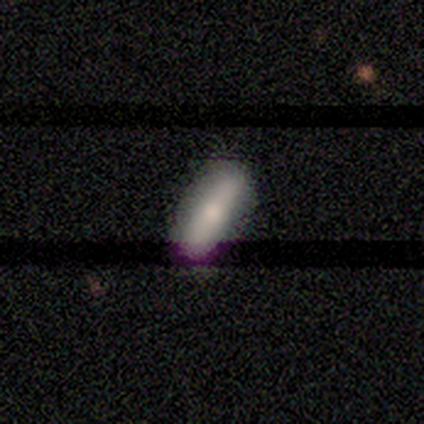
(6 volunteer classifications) Smooth or featured? 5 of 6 (83%) said smooth. How rounded? 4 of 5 (80%) said in between. Merging? 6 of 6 (100%) said none.